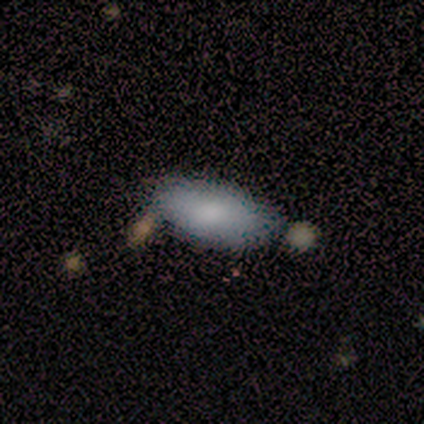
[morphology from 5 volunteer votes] Volunteers were most divided on "merging": none: 80%, merger: 20%, minor disturbance: 0%, major disturbance: 0%. More confident: smooth or featured — smooth (100%); how rounded — in between (100%).